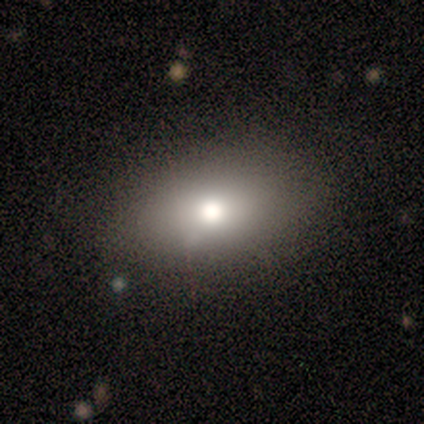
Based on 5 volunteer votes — Smooth or featured? smooth (100%)
How rounded? in between (100%)
Merging? none (100%)